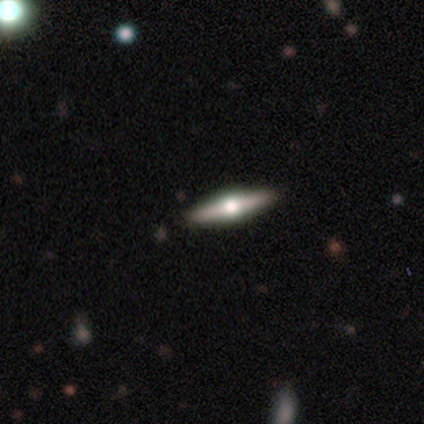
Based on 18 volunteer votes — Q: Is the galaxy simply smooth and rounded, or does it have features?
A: featured or disk — 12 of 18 (67%).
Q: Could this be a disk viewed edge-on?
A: yes — 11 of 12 (92%).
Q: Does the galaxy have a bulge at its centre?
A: rounded — 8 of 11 (73%).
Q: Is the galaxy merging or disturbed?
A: none — 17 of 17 (100%).